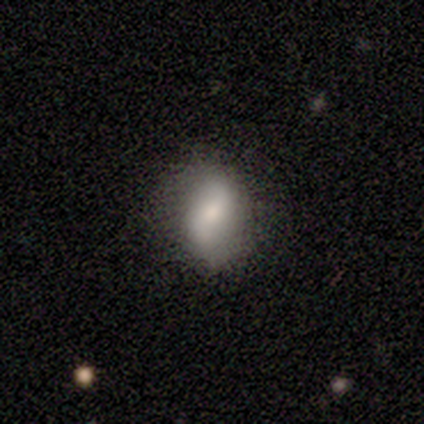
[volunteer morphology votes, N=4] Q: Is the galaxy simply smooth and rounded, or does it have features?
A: smooth — 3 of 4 (75%).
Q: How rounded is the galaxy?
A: in between — 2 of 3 (67%).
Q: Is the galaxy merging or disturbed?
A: none — 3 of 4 (75%).